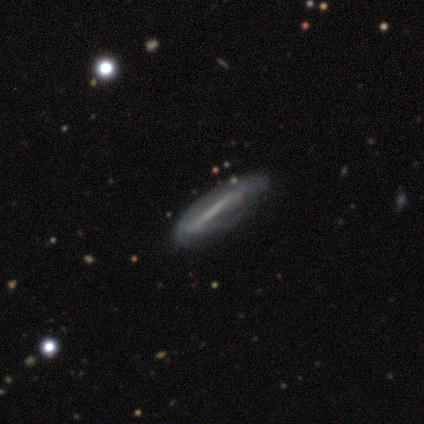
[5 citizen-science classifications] Volunteers were most divided on "smooth or featured": featured or disk: 60%, smooth: 40%, star or artifact: 0%. More confident: edge-on bulge — none (100%); merging — none (80%); edge-on disk — yes (67%).